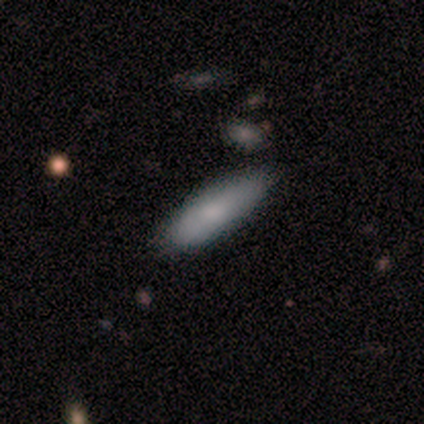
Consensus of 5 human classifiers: Smooth or featured: smooth — 80% (star or artifact — 20%)
How rounded: in between — 50% (tied with cigar-shaped — 50%)
Merging: none — 100%